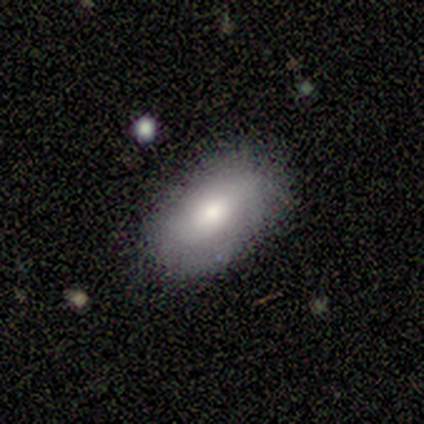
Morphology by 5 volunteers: Volunteers were most divided on "smooth or featured": smooth: 60%, featured or disk: 40%, star or artifact: 0%. More confident: how rounded — in between (100%); merging — none (100%).